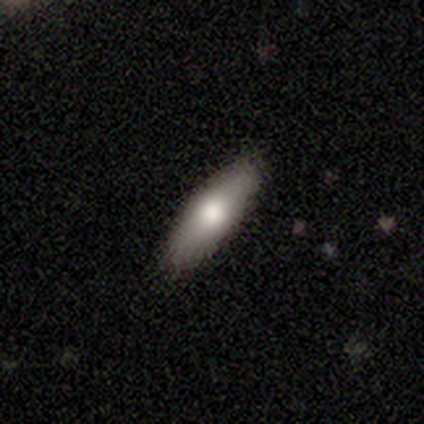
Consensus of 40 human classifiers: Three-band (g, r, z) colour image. It shows a smooth galaxy with no disk features (70%) that is cigar-shaped (54%). Merging: none (82%).